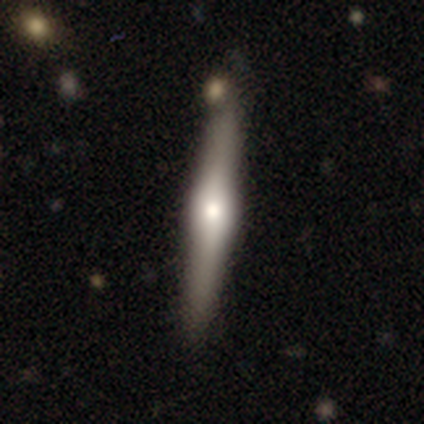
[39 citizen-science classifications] Smooth or featured: featured or disk — 74% (smooth — 26%)
Edge-on disk: yes — 97% (no — 3%)
Edge-on bulge: rounded — 89% (boxy — 11%)
Merging: none — 77% (merger — 15%)